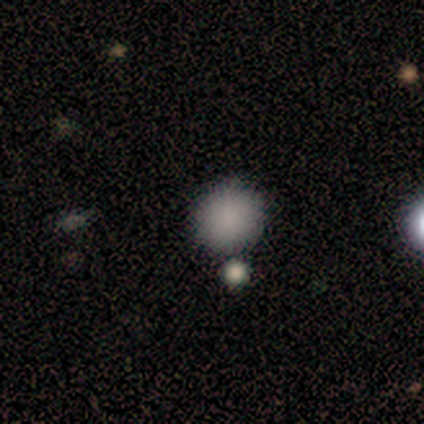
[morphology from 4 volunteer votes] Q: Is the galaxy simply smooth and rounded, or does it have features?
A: smooth — 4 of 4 (100%).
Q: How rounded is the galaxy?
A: round — 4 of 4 (100%).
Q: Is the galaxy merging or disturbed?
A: none — 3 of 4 (75%).